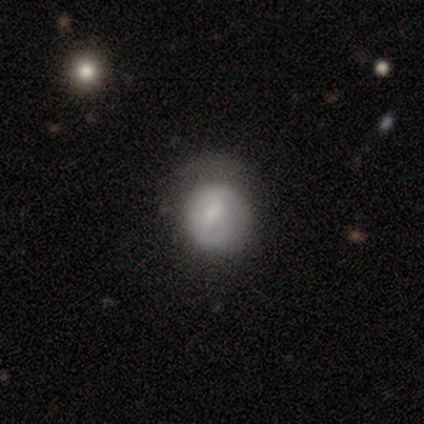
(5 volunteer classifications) smooth_or_featured: smooth (p=0.40) [tied with: featured or disk p=0.40]
how_rounded: round (p=1.00)
merging: none (p=0.75) [alt: minor disturbance p=0.25]